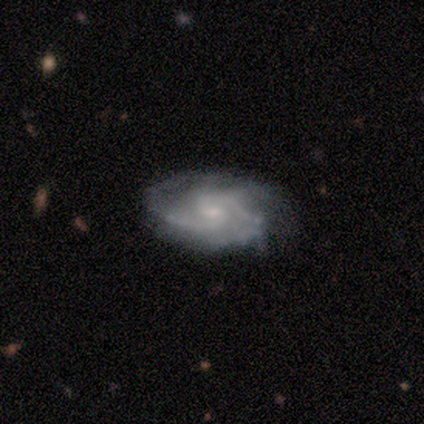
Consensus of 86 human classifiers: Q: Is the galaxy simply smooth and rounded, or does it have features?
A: featured or disk — 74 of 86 (86%).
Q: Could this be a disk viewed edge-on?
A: no — 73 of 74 (99%).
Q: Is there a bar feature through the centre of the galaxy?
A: no — 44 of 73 (60%).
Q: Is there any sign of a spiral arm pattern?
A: yes — 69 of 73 (95%).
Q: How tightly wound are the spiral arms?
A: medium — 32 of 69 (46%).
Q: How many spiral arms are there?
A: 2 — 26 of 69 (38%).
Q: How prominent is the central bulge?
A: small — 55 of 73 (75%).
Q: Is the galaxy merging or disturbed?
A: none — 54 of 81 (67%).